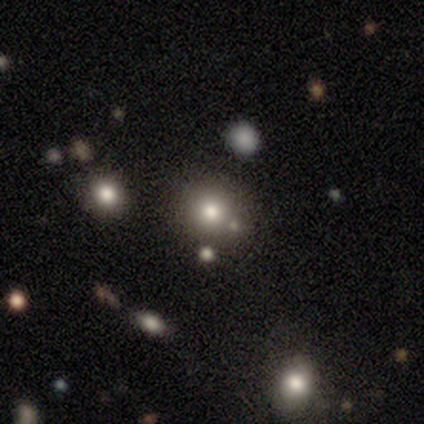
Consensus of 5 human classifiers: star or artifact 60%, smooth 20%, featured or disk 20%.